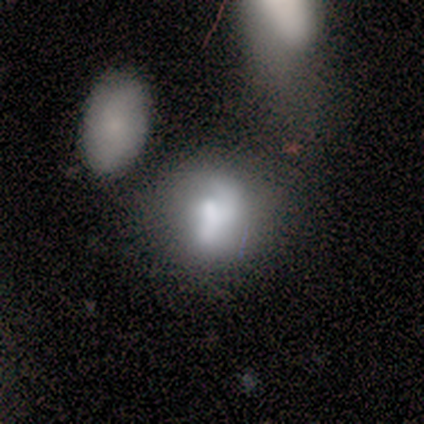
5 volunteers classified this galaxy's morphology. Volunteers were most divided on "smooth or featured": smooth: 60%, featured or disk: 40%, star or artifact: 0%. Remaining: how rounded — in between (67%); merging — merger (40%).